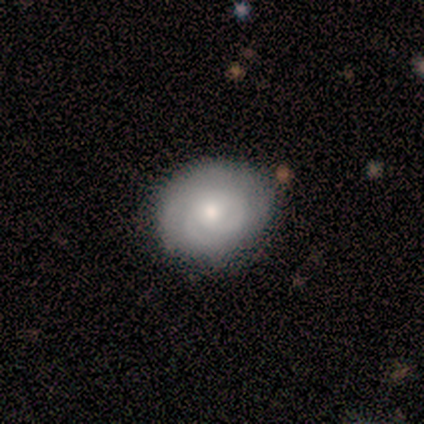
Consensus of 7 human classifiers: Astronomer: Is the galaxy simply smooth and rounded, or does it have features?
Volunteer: featured or disk — 71%.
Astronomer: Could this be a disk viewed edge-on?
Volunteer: no — 100%.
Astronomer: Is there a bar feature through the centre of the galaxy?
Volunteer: no — 100%.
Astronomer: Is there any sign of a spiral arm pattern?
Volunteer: yes — 100%.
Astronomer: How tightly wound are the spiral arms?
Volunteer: medium — 60% (runner-up: tight, 40%).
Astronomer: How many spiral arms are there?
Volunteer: can't tell — 40% (runner-up: 2, 20%).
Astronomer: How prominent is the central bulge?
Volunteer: moderate — 60% (runner-up: small, 40%).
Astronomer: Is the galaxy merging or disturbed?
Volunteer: none — 100%.